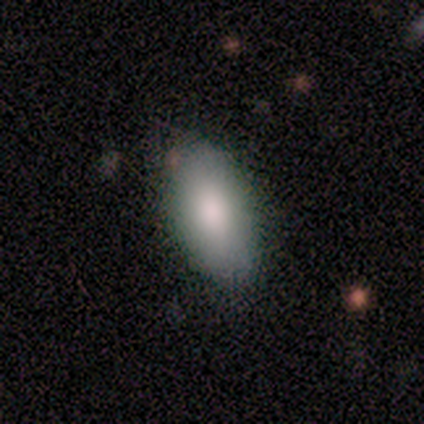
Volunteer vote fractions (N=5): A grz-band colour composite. It shows a smooth galaxy with no disk features (100%) that is in between round and cigar-shaped (100%). Merging: none (80%).